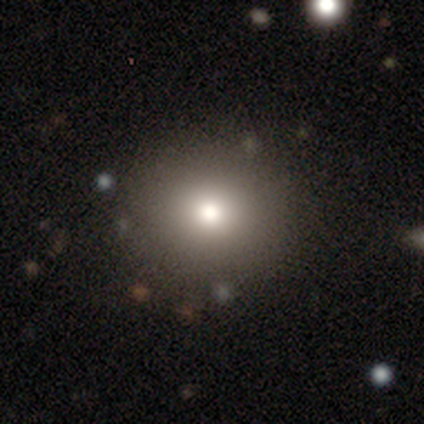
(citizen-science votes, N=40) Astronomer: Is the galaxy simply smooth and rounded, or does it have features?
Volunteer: smooth — 82%.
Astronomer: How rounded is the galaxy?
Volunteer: round — 91%.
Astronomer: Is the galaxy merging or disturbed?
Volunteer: none — 89%.